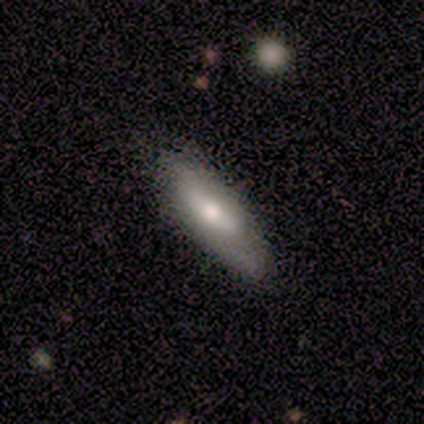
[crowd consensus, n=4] Smooth or featured? 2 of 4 (50%) said featured or disk. Edge-on disk? 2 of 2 (100%) said no. Bar? 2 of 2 (100%) said weak. Spiral arms? 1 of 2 (50%, tied with no) said yes. Spiral winding? 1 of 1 (100%) said medium. Spiral arm count? 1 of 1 (100%) said 2. Bulge size? 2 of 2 (100%) said small. Merging? 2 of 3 (67%) said none.